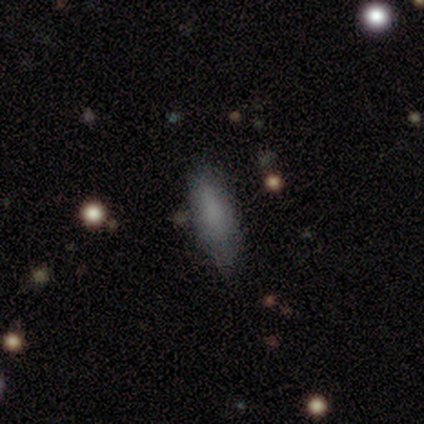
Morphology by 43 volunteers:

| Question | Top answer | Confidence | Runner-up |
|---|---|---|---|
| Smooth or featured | smooth | 77% | featured or disk (12%) |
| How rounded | in between | 52% | cigar-shaped (48%) |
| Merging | none | 66% | minor disturbance (32%) |